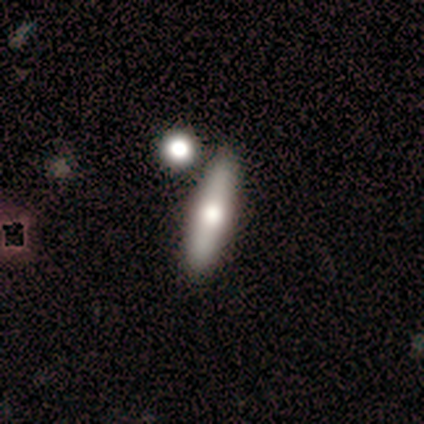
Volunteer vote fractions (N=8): Overall: smooth (88%). How rounded: cigar-shaped (71%). Merging: none (57%; minor disturbance 43%).